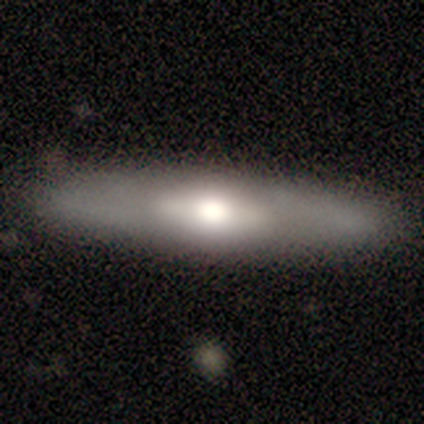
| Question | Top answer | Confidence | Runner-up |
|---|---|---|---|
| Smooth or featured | smooth | 60% | featured or disk (40%) |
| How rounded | in between | 67% | cigar-shaped (33%) |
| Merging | none | 80% | merger (20%) |